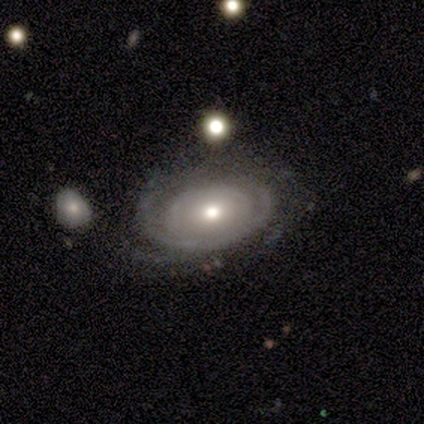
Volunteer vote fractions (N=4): A smooth galaxy with no disk features (50%, tied with featured or disk) that is in between round and cigar-shaped (100%).

Vote fractions:
- Smooth or featured? smooth: 50% (tied) / featured or disk: 50% (tied) / star or artifact: 0%
- How rounded? in between: 100% / round: 0% / cigar-shaped: 0%
- Merging? none: 50% / major disturbance: 25% / merger: 25% / minor disturbance: 0%